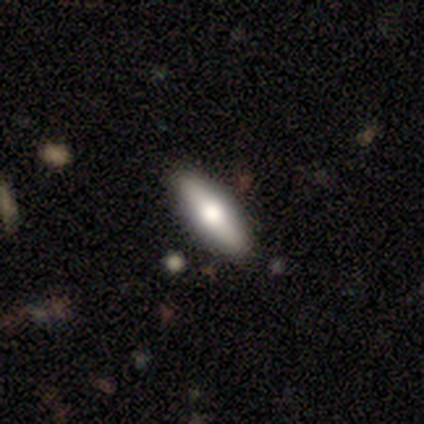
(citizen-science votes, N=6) Smooth or featured? 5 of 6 (83%) said smooth. How rounded? 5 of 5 (100%) said in between. Merging? 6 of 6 (100%) said none.